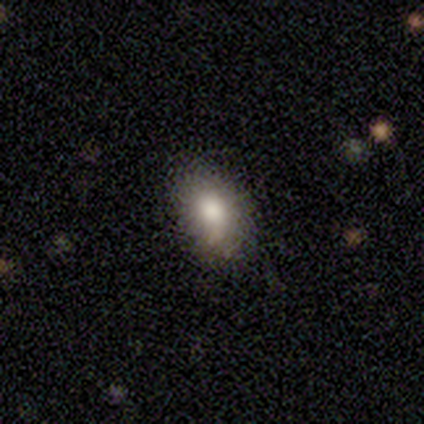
Volunteers were most divided on "smooth or featured": smooth: 65%, star or artifact: 19%, featured or disk: 16%. More confident: how rounded — in between (79%); merging — none (73%).